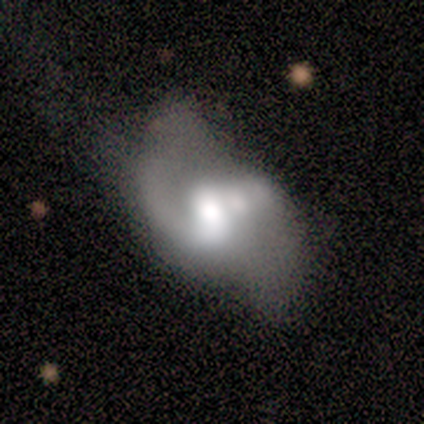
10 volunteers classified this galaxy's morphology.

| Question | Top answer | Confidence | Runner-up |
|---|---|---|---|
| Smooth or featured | featured or disk | 90% | smooth (10%) |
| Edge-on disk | no | 100% | — |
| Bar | no | 67% | weak (33%) |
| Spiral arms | yes | 89% | no (11%) |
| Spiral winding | loose | 75% | medium (25%) |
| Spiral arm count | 1 | 50% | tied: 2 (50%) |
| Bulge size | moderate | 56% | large (33%) |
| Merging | none | 40% | merger (30%) |